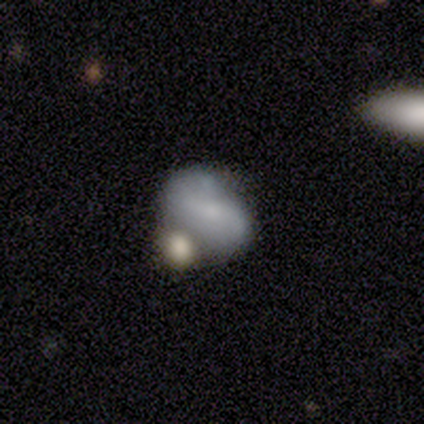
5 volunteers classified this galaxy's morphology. Volunteers were most divided on "bar" (2-way tie): weak: 50%, no: 50%, strong: 0%. More confident: spiral arms — yes (100%); spiral winding — loose (100%); spiral arm count — 2 (100%); bulge size — moderate (100%); merging — none (80%); edge-on disk — no (67%); smooth or featured — featured or disk (60%).